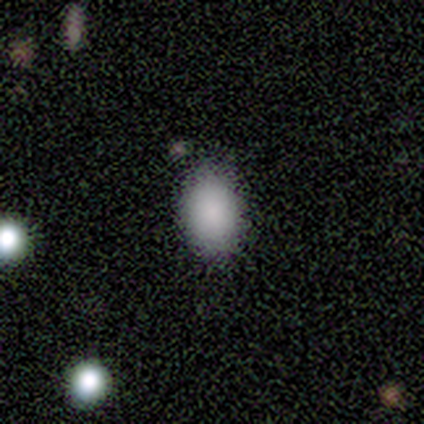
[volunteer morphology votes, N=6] smooth_or_featured: smooth (p=0.83) [alt: star or artifact p=0.17]
how_rounded: in between (p=1.00)
merging: none (p=0.80) [alt: minor disturbance p=0.20]